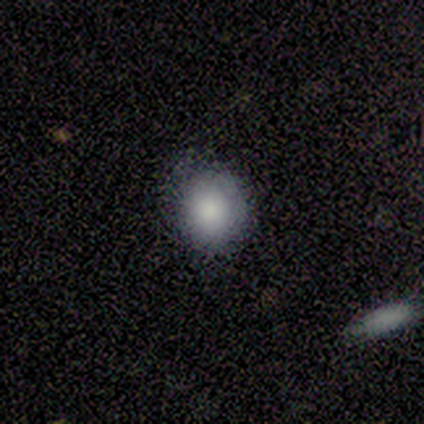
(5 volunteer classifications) This appears to be a smooth galaxy with no disk features (100%) that is round (60%). Merging: none (80%).